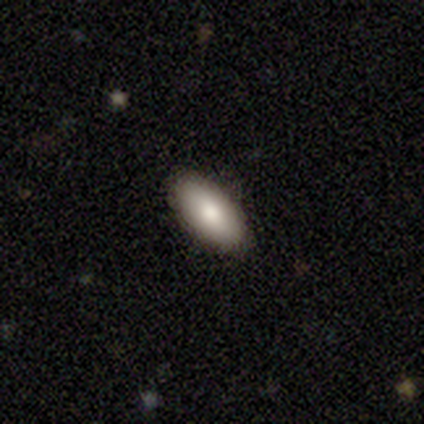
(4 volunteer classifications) Morphology: type=smooth (100%); roundness=in between (100%); merging=none (100%).